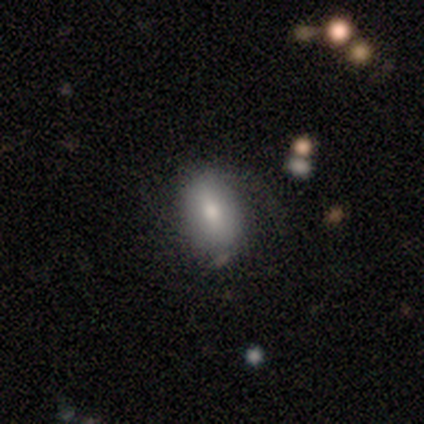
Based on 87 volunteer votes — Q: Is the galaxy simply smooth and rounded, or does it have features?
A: smooth — 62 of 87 (71%).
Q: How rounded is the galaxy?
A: in between — 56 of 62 (90%).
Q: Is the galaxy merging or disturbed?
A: none — 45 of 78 (58%).